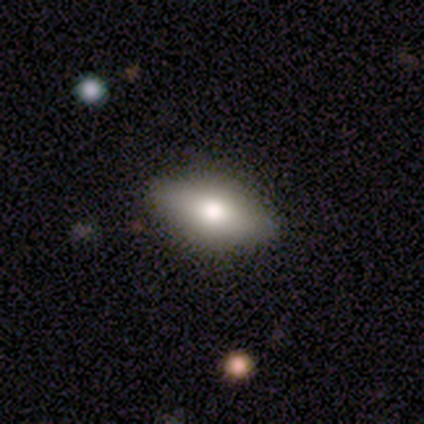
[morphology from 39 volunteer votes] A smooth galaxy with no disk features (54%) that is in between round and cigar-shaped (90%). Merging: none (82%).